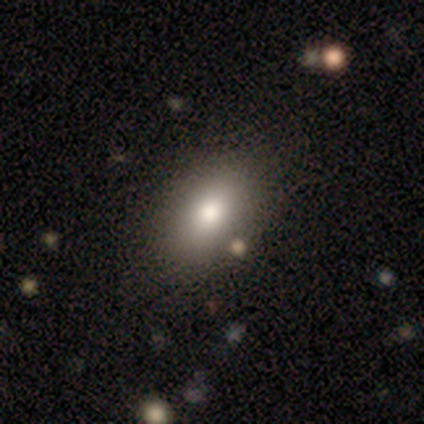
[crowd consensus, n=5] smooth-or-featured: smooth: 80% | featured or disk: 20% | star or artifact: 0%
  how-rounded: in between: 100% | round: 0% | cigar-shaped: 0%
  merging: none: 80% | minor disturbance: 20% | major disturbance: 0% | merger: 0%